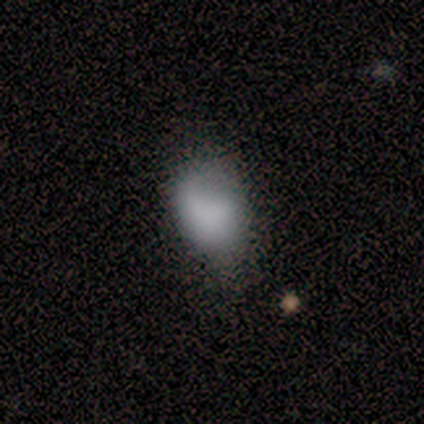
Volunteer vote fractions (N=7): Smooth or featured: smooth — 71% (featured or disk — 29%)
How rounded: in between — 100%
Merging: minor disturbance — 57% (none — 43%)